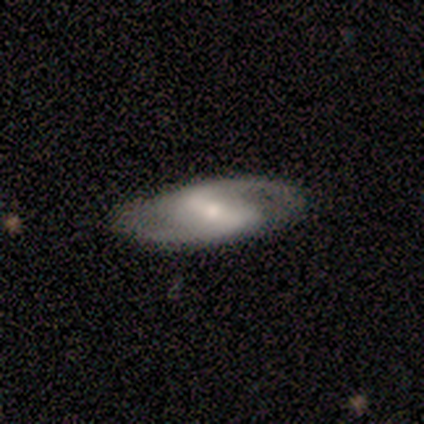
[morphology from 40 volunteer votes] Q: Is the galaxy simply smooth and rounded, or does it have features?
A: featured or disk — 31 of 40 (78%).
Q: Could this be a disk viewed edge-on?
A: no — 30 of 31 (97%).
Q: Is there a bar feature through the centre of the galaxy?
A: strong — 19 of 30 (63%).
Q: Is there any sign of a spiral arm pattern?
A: yes — 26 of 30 (87%).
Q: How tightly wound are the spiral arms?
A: medium — 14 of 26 (54%).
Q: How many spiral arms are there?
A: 2 — 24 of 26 (92%).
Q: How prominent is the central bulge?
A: small — 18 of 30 (60%).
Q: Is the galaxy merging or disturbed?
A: none — 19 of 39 (49%).